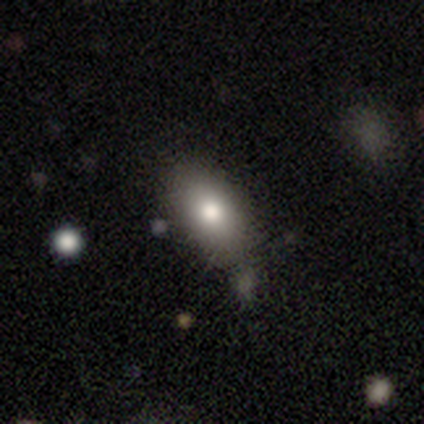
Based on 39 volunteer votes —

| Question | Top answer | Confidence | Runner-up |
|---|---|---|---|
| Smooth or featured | smooth | 74% | featured or disk (18%) |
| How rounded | in between | 90% | round (10%) |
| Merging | none | 42% | merger (17%) |